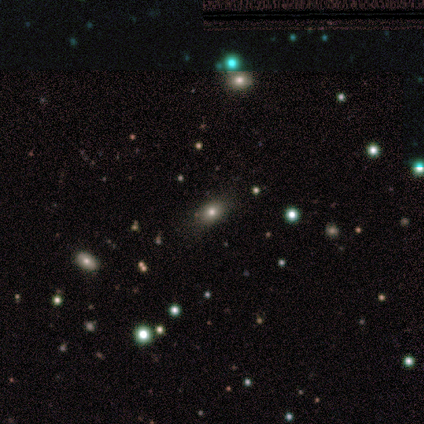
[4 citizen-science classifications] smooth_or_featured: smooth (p=0.50) [tied with: star or artifact p=0.50]
how_rounded: round (p=0.50) [tied with: in between p=0.50]
merging: none (p=1.00)